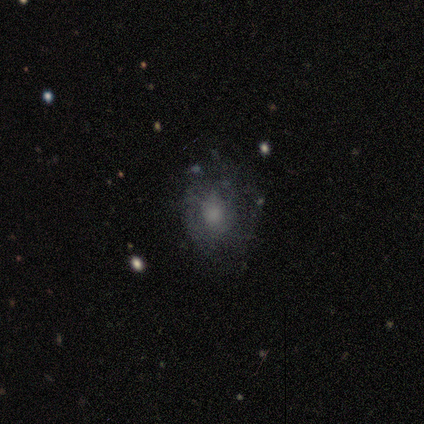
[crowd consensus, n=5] Smooth or featured? smooth (40%, tied with star or artifact)
How rounded? in between (100%)
Merging? none (67%)